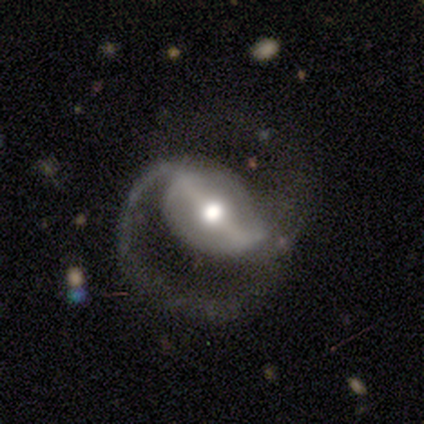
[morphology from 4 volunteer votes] A featured or disk galaxy (100%) with a strong bar (100%), 2 (75%) medium (100%) spiral arms (100%) and a moderate central bulge (50%).

Vote fractions:
- Smooth or featured? featured or disk: 100% / smooth: 0% / star or artifact: 0%
- Edge-on disk? no: 100% / yes: 0%
- Bar? strong: 100% / weak: 0% / no: 0%
- Spiral arms? yes: 100% / no: 0%
- Spiral winding? medium: 100% / tight: 0% / loose: 0%
- Spiral arm count? 2: 75% / 1: 25% / 3: 0% / 4: 0% / more than 4: 0% / can't tell: 0%
- Bulge size? moderate: 50% / large: 25% / small: 25% / dominant: 0% / none: 0%
- Merging? none: 75% / minor disturbance: 25% / major disturbance: 0% / merger: 0%